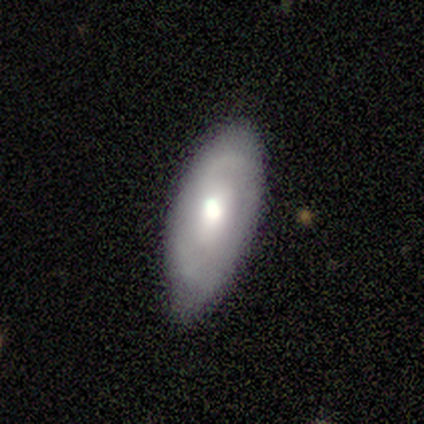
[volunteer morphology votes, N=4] This is possibly a smooth galaxy (50%, tied with featured or disk). How rounded: clearly in between (100%). Merging: likely none (75%).